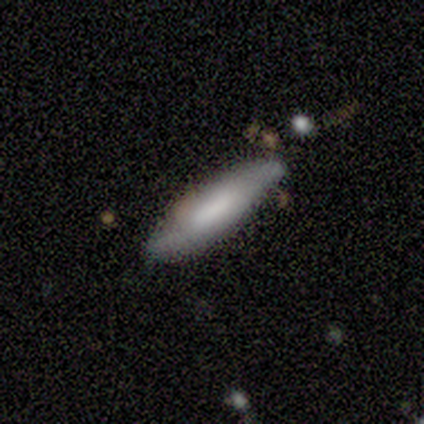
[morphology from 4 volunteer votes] Volunteers were most divided on "smooth or featured": smooth: 75%, featured or disk: 25%, star or artifact: 0%. More confident: how rounded — cigar-shaped (100%); merging — none (75%).